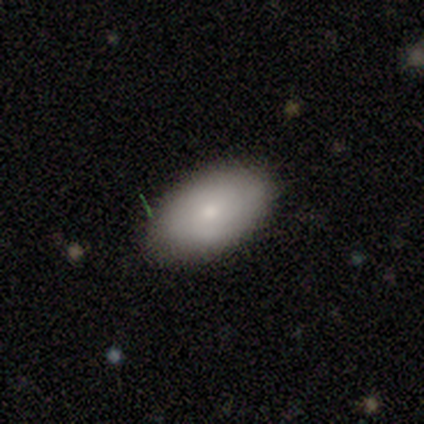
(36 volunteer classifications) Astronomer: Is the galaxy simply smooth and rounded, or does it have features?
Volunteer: smooth — 72%.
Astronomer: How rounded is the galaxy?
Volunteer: in between — 96%.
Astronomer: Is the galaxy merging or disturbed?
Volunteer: none — 77%.